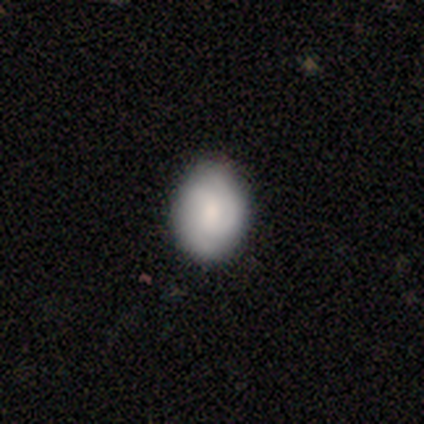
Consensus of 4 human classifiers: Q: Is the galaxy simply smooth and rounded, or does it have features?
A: smooth — 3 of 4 (75%).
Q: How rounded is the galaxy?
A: in between — 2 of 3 (67%).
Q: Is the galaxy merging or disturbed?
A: none — 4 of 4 (100%).